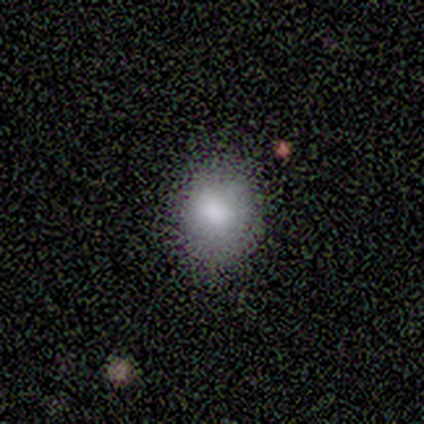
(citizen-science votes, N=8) smooth_or_featured: smooth (p=0.88) [alt: featured or disk p=0.12]
how_rounded: round (p=0.57) [alt: in between p=0.43]
merging: none (p=0.88) [alt: major disturbance p=0.12]